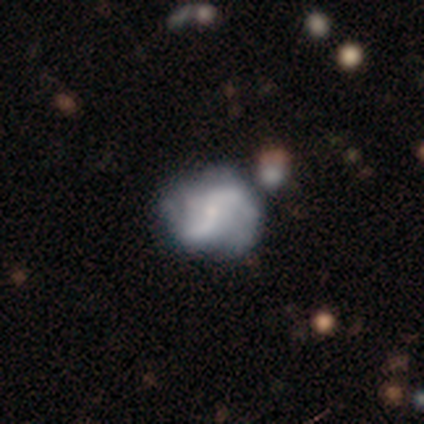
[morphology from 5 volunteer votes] Volunteers were most divided on "bar" (2-way tie): strong: 40%, weak: 40%, no: 20%. Remaining: smooth or featured — featured or disk (100%); edge-on disk — no (100%); spiral arms — yes (80%); bulge size — small (80%); spiral winding — loose (75%); spiral arm count — 2 (75%); merging — none (40%).